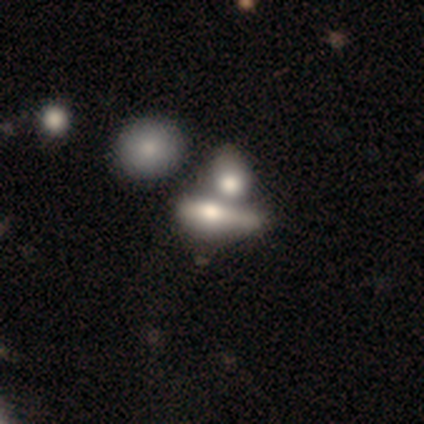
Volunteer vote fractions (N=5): Smooth or featured? smooth (60%)
How rounded? cigar-shaped (67%)
Merging? merger (75%)